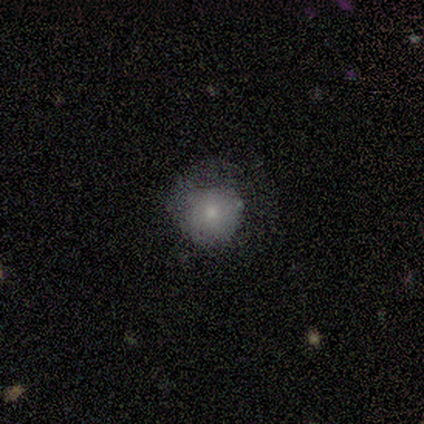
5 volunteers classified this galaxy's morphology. A smooth galaxy with no disk features (100%) that is round (80%).

Vote fractions:
- Smooth or featured? smooth: 100% / featured or disk: 0% / star or artifact: 0%
- How rounded? round: 80% / in between: 20% / cigar-shaped: 0%
- Merging? none: 80% / minor disturbance: 20% / major disturbance: 0% / merger: 0%